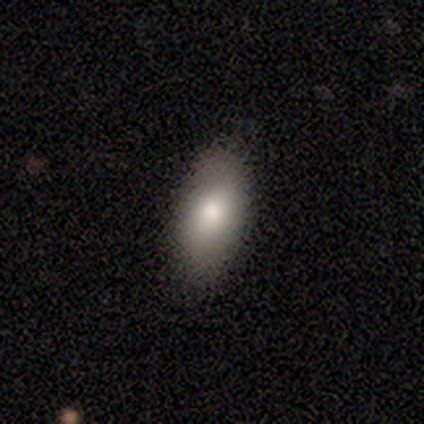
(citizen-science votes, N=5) Smooth or featured?
  - smooth: 80% *
  - featured or disk: 20%
  - star or artifact: 0%
How rounded?
  - in between: 100% *
  - round: 0%
  - cigar-shaped: 0%
Merging?
  - none: 100% *
  - minor disturbance: 0%
  - major disturbance: 0%
  - merger: 0%